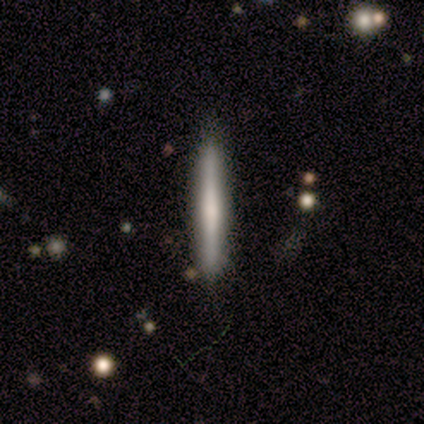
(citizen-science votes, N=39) Morphology: type=smooth (46%); roundness=cigar-shaped (100%); merging=none (89%).